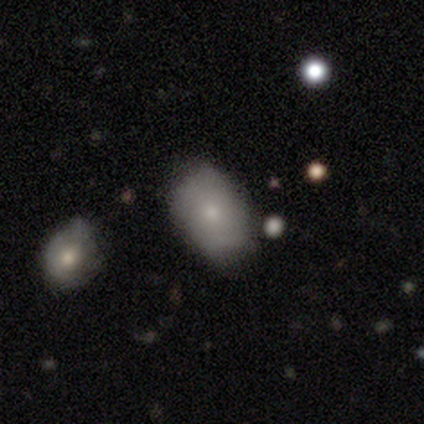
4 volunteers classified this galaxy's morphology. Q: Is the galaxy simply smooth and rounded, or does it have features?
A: smooth — 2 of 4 (50%).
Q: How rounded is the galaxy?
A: in between — 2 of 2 (100%).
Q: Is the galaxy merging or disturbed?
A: none — 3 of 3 (100%).